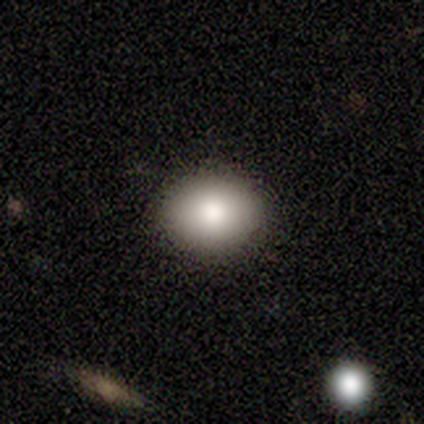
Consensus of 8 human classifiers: Smooth or featured?
  - smooth: 88% *
  - star or artifact: 12%
  - featured or disk: 0%
How rounded?
  - round: 57% *
  - in between: 43%
  - cigar-shaped: 0%
Merging?
  - none: 100% *
  - minor disturbance: 0%
  - major disturbance: 0%
  - merger: 0%